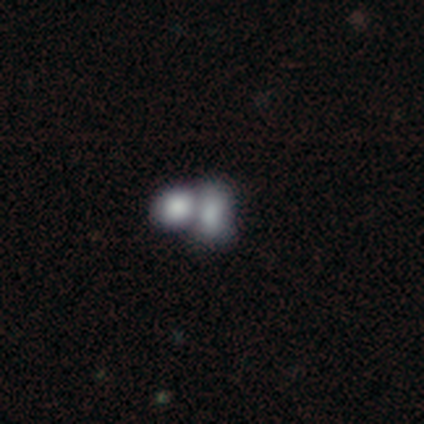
Smooth or featured: smooth — 40% (tied with featured or disk — 40%)
How rounded: round — 50% (tied with in between — 50%)
Merging: merger — 75% (minor disturbance — 25%)